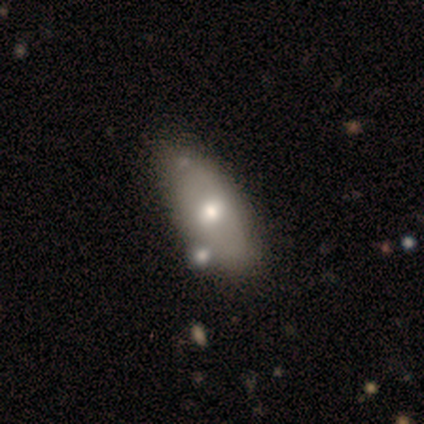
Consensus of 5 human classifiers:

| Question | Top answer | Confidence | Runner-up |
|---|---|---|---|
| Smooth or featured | smooth | 60% | featured or disk (40%) |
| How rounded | in between | 67% | cigar-shaped (33%) |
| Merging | none | 80% | minor disturbance (20%) |